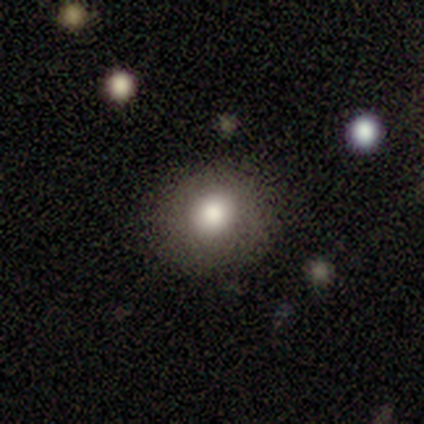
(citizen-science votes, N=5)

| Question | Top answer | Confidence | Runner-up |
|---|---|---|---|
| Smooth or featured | smooth | 80% | star or artifact (20%) |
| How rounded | round | 75% | in between (25%) |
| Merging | none | 100% | — |